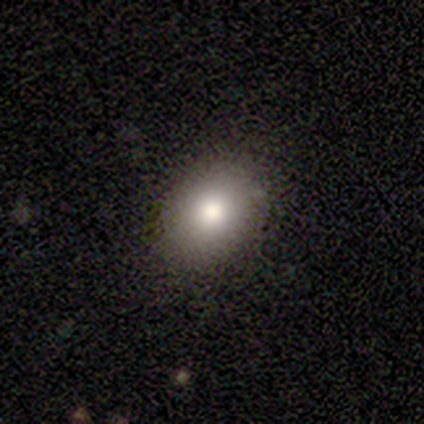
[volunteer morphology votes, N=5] This is clearly a smooth galaxy (80%). How rounded: likely in between (75%). Merging: likely none (75%).